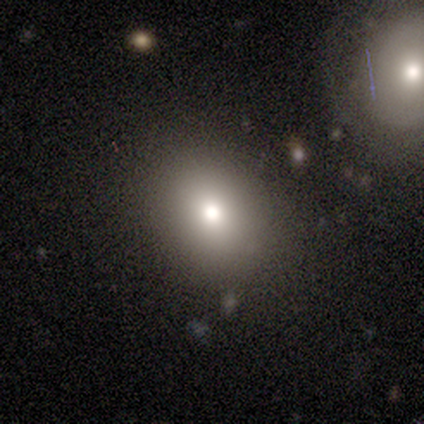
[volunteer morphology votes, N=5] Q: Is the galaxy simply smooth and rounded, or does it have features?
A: smooth — 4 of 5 (80%).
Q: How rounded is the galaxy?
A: round — 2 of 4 (50%, tied with in between).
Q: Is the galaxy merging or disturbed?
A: none — 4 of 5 (80%).